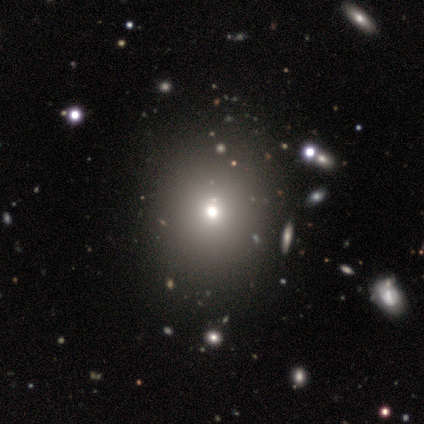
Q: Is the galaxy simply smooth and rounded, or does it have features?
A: smooth — 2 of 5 (40%, tied with featured or disk).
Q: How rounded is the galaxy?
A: round — 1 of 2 (50%, tied with in between).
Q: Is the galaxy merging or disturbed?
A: none — 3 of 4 (75%).